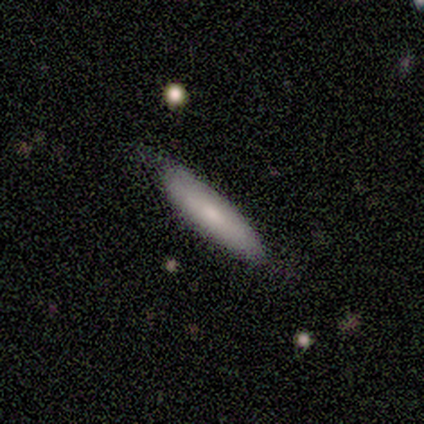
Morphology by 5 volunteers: Smooth or featured: smooth — 80% (featured or disk — 20%)
How rounded: in between — 50% (tied with cigar-shaped — 50%)
Merging: none — 60% (minor disturbance — 40%)